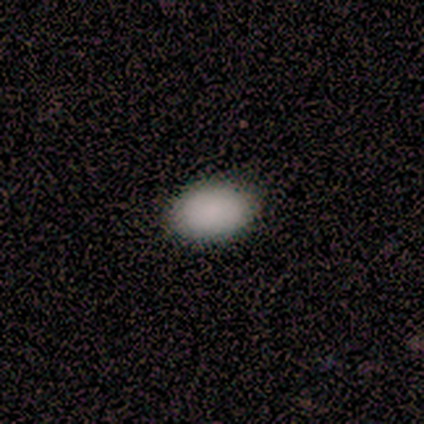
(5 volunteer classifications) Overall: smooth (100%). How rounded: in between (100%). Merging: none (60%; minor disturbance 40%).